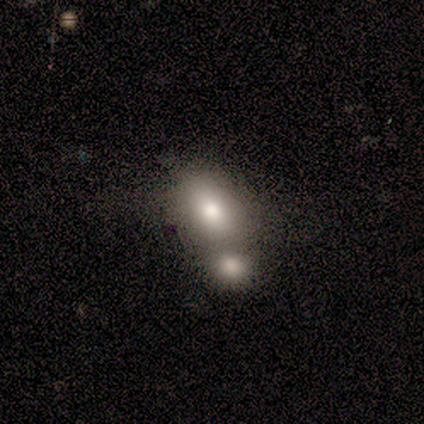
This is clearly a smooth galaxy (87%). How rounded: clearly in between (100%). Merging: likely merger (67%).